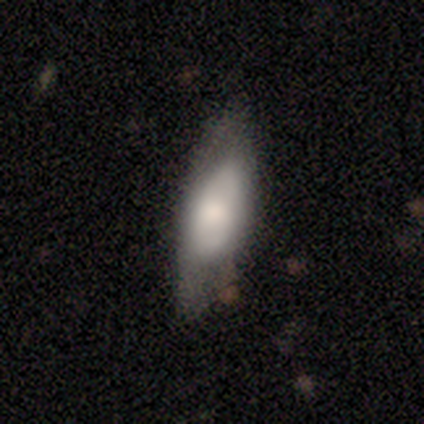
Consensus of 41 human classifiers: Morphology: type=smooth (61%); roundness=in between (64%); merging=none (41%).